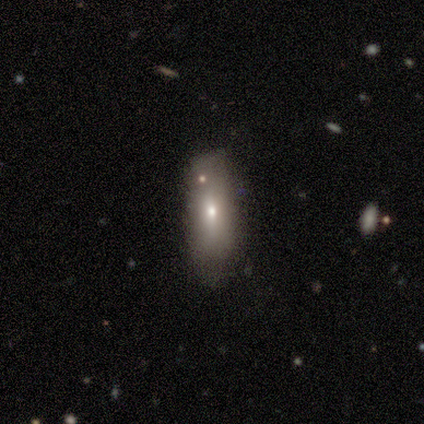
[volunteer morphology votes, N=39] Overall: smooth (51%; featured or disk 33%). How rounded: in between (75%). Merging: none (73%).